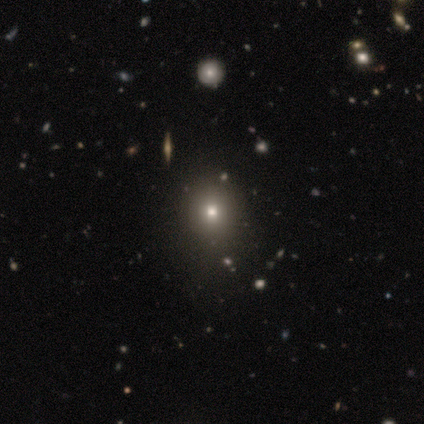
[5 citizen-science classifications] smooth-or-featured: smooth: 60% | star or artifact: 40% | featured or disk: 0%
  how-rounded: round: 100% | in between: 0% | cigar-shaped: 0%
  merging: none: 67% | merger: 33% | minor disturbance: 0% | major disturbance: 0%